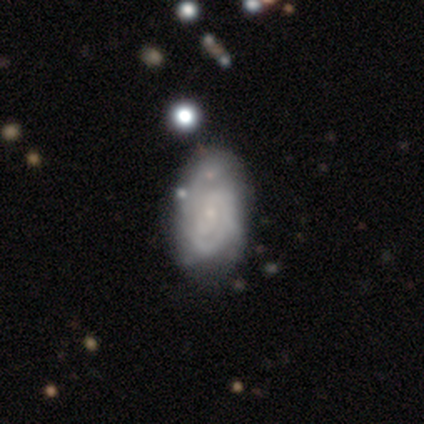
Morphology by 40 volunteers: Smooth or featured?
  - featured or disk: 78% *
  - smooth: 22%
  - star or artifact: 0%
Edge-on disk?
  - no: 100% *
  - yes: 0%
Bar?
  - no: 68% *
  - weak: 29%
  - strong: 3%
Spiral arms?
  - yes: 90% *
  - no: 10%
Spiral winding?
  - tight: 79% *
  - medium: 11%
  - loose: 11%
Spiral arm count?
  - 2: 50% *
  - can't tell: 29%
  - 3: 14%
  - 1: 4%
  - more than 4: 4%
  - 4: 0%
Bulge size?
  - small: 61% *
  - moderate: 26%
  - none: 13%
  - dominant: 0%
  - large: 0%
Merging?
  - none: 30% *
  - minor disturbance: 22%
  - major disturbance: 12%
  - merger: 8%